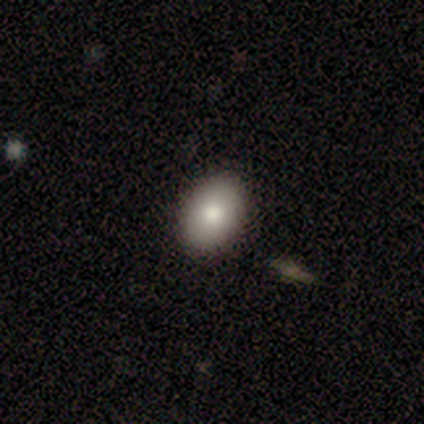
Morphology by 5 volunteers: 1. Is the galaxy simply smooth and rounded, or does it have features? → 80% smooth, 20% star or artifact, 0% featured or disk.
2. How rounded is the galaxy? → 75% in between, 25% round, 0% cigar-shaped.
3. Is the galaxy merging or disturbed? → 100% none, 0% minor disturbance, 0% major disturbance, 0% merger.